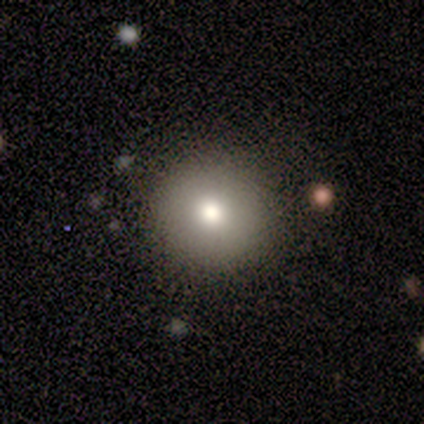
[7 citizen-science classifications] Q: Smooth or featured?
A: smooth (100%)
Q: How rounded?
A: round (100%)
Q: Merging?
A: none (100%)